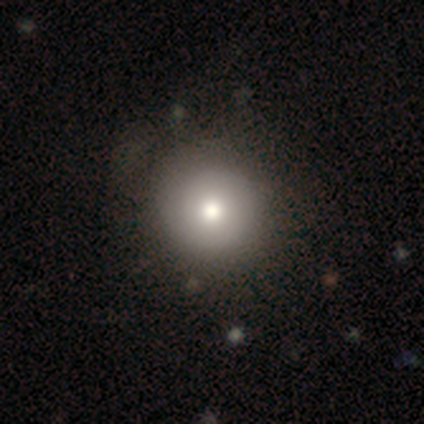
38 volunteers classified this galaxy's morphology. smooth-or-featured: smooth: 68% | featured or disk: 21% | star or artifact: 11%
  how-rounded: round: 96% | in between: 4% | cigar-shaped: 0%
  merging: none: 56% | minor disturbance: 15% | major disturbance: 3% | merger: 0%